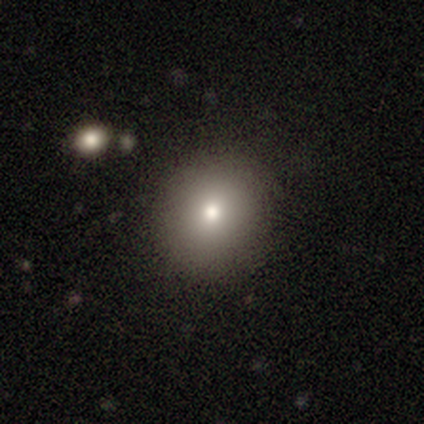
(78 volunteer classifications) This is likely a smooth galaxy (73%). How rounded: clearly round (89%). Merging: marginally none (44%).